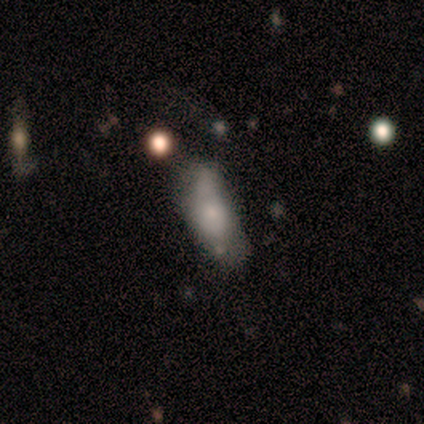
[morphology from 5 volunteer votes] Smooth or featured?
  - smooth: 60% *
  - featured or disk: 20%
  - star or artifact: 20%
How rounded?
  - in between: 100% *
  - round: 0%
  - cigar-shaped: 0%
Merging?
  - minor disturbance: 50% *
  - none: 25%
  - major disturbance: 25%
  - merger: 0%